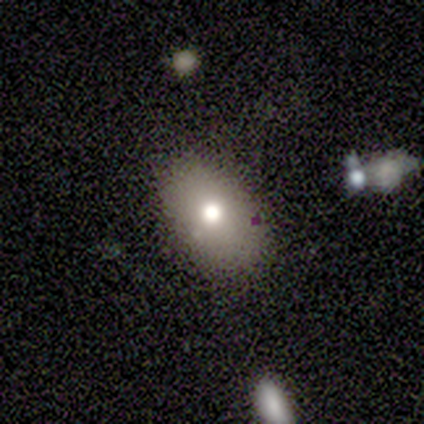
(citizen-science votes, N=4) Smooth or featured? 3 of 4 (75%) said smooth. How rounded? 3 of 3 (100%) said in between. Merging? 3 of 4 (75%) said none.